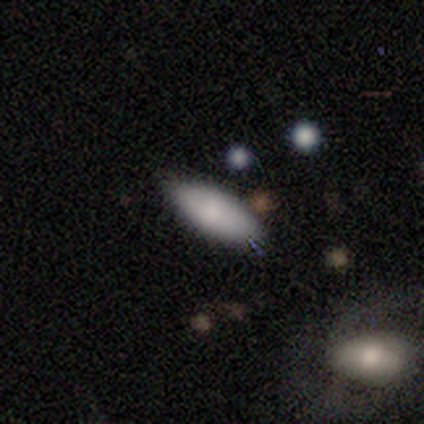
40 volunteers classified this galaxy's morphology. smooth-or-featured: smooth: 78% | featured or disk: 15% | star or artifact: 8%
  how-rounded: in between: 81% | cigar-shaped: 19% | round: 0%
  merging: none: 78% | merger: 14% | minor disturbance: 8% | major disturbance: 0%